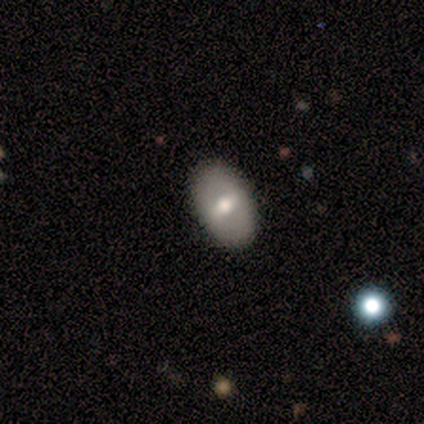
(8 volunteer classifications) smooth-or-featured: smooth: 62% | featured or disk: 25% | star or artifact: 12%
  how-rounded: in between: 100% | round: 0% | cigar-shaped: 0%
  merging: none: 100% | minor disturbance: 0% | major disturbance: 0% | merger: 0%